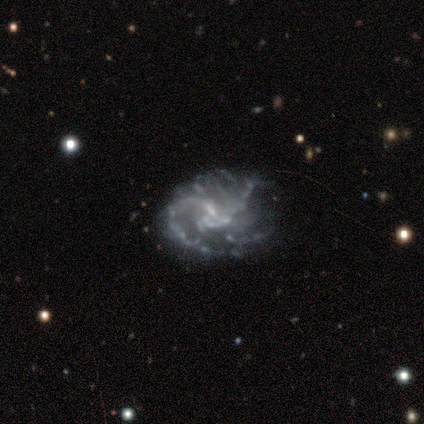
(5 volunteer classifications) smooth-or-featured: featured or disk: 100% | smooth: 0% | star or artifact: 0%
  disk-edge-on: no: 100% | yes: 0%
    bar: weak: 60% | no: 40% | strong: 0%
    has-spiral-arms: yes: 80% | no: 20%
      spiral-winding: tight: 50% (tied) | medium: 50% (tied) | loose: 0%
      spiral-arm-count: 3: 50% | 1: 25% | can't tell: 25% | 2: 0% | 4: 0% | more than 4: 0%
    bulge-size: none: 80% | small: 20% | dominant: 0% | large: 0% | moderate: 0%
  merging: minor disturbance: 60% | none: 40% | major disturbance: 0% | merger: 0%